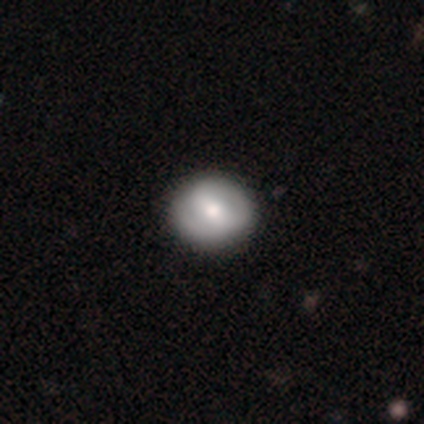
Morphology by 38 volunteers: smooth-or-featured: featured or disk: 50% | smooth: 45% | star or artifact: 5%
  disk-edge-on: no: 100% | yes: 0%
    bar: weak: 58% | strong: 26% | no: 16%
    has-spiral-arms: yes: 63% | no: 37%
      spiral-winding: tight: 83% | medium: 17% | loose: 0%
      spiral-arm-count: 2: 92% | can't tell: 8% | 1: 0% | 3: 0% | 4: 0% | more than 4: 0%
    bulge-size: moderate: 68% | large: 16% | small: 11% | none: 5% | dominant: 0%
  merging: none: 53% | minor disturbance: 8% | major disturbance: 3% | merger: 3%